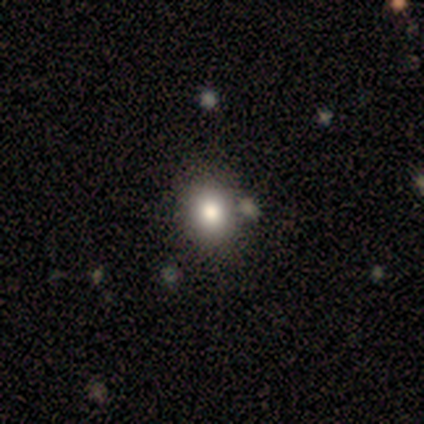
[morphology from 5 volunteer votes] Smooth or featured? smooth (80%)
How rounded? round (75%)
Merging? none (75%)